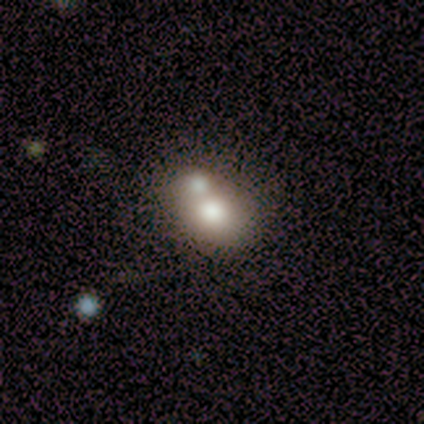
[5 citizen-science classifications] Smooth or featured?
  - featured or disk: 60% *
  - smooth: 20%
  - star or artifact: 20%
Edge-on disk?
  - no: 100% *
  - yes: 0%
Bar?
  - no: 67% *
  - weak: 33%
  - strong: 0%
Spiral arms?
  - no: 100% *
  - yes: 0%
Bulge size?
  - large: 67% *
  - moderate: 33%
  - dominant: 0%
  - small: 0%
  - none: 0%
Merging?
  - merger: 100% *
  - none: 0%
  - minor disturbance: 0%
  - major disturbance: 0%